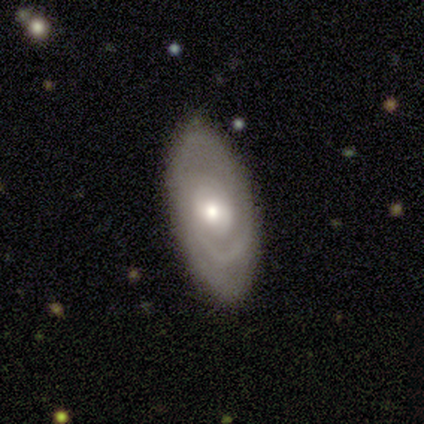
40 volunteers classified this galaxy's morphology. A featured or disk galaxy (57%) with no bar (60%), 2 (45%) tight (65%) spiral arms (100%) and a moderate central bulge (45%). Merging: none (89%).